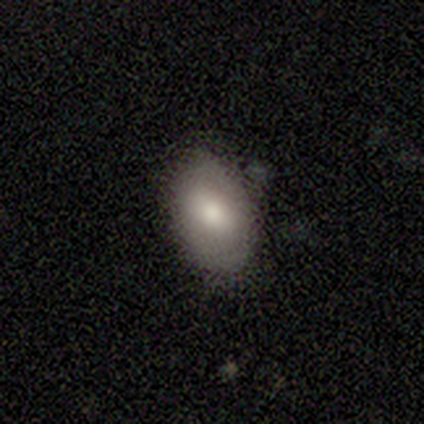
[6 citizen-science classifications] Smooth or featured: smooth — 83% (featured or disk — 17%)
How rounded: in between — 80% (round — 20%)
Merging: none — 50% (minor disturbance — 33%)